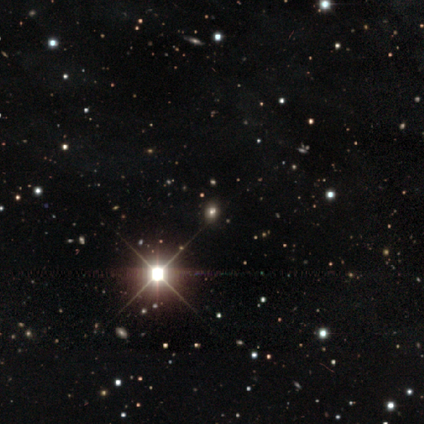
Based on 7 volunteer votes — This is clearly a star or artifact rather than a galaxy (86%).